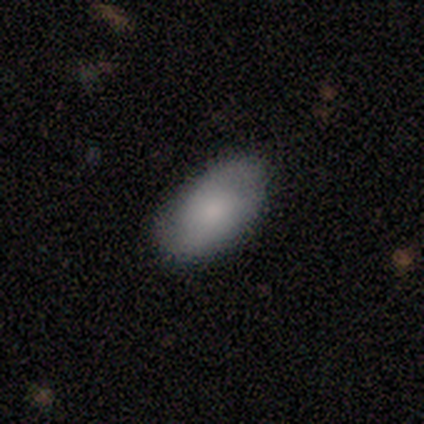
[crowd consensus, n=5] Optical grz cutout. It shows a smooth galaxy with no disk features (100%) that is in between round and cigar-shaped (80%). Merging: none (80%).